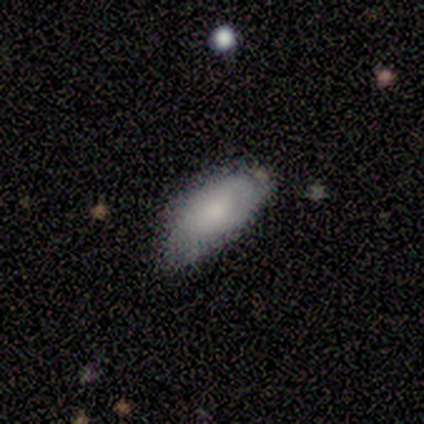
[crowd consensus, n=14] A smooth galaxy with no disk features (57%) that is in between round and cigar-shaped (100%).

Vote fractions:
- Smooth or featured? smooth: 57% / featured or disk: 29% / star or artifact: 14%
- How rounded? in between: 100% / round: 0% / cigar-shaped: 0%
- Merging? none: 50% / minor disturbance: 42% / merger: 8% / major disturbance: 0%